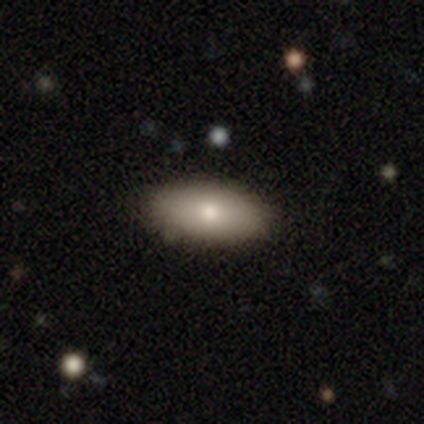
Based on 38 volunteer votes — Volunteers were most divided on "how rounded": in between: 89%, round: 6%, cigar-shaped: 6%. More confident: smooth or featured — smooth (95%); merging — none (92%).